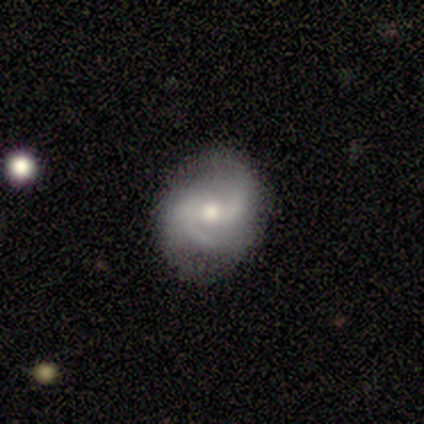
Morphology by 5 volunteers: smooth_or_featured: featured or disk (p=0.80) [alt: smooth p=0.20]
disk_edge_on: no (p=1.00)
bar: weak (p=0.50) [tied with: no p=0.50]
has_spiral_arms: yes (p=1.00)
spiral_winding: loose (p=0.50) [alt: tight p=0.25]
spiral_arm_count: 2 (p=0.75) [alt: 4 p=0.25]
bulge_size: moderate (p=0.75) [alt: dominant p=0.25]
merging: none (p=0.80) [alt: major disturbance p=0.20]